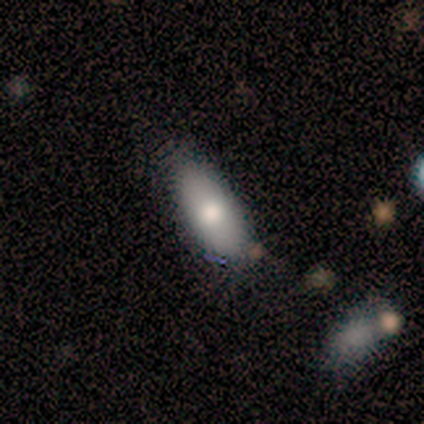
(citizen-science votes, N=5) This is clearly a smooth galaxy (100%). How rounded: clearly in between (80%). Merging: likely none (60%).